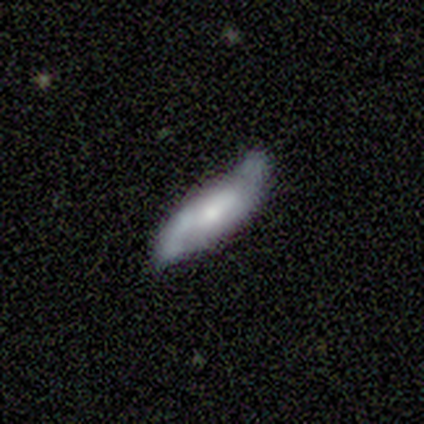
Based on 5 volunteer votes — Volunteers were most divided on "merging": none: 60%, minor disturbance: 40%, major disturbance: 0%, merger: 0%. More confident: spiral arms — yes (100%); spiral arm count — 2 (100%); smooth or featured — featured or disk (80%); edge-on disk — no (75%); bar — no (67%); spiral winding — loose (67%); bulge size — moderate (67%).